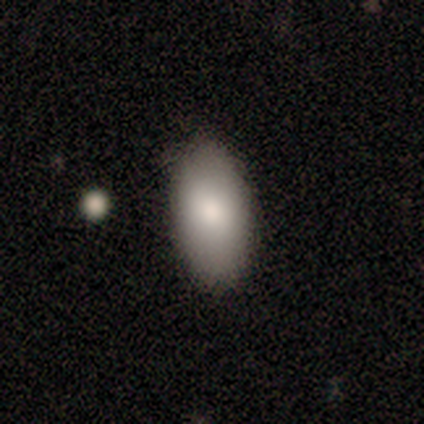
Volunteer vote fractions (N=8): Volunteers were most divided on "merging": none: 62%, minor disturbance: 38%, major disturbance: 0%, merger: 0%. More confident: smooth or featured — smooth (100%); how rounded — in between (100%).